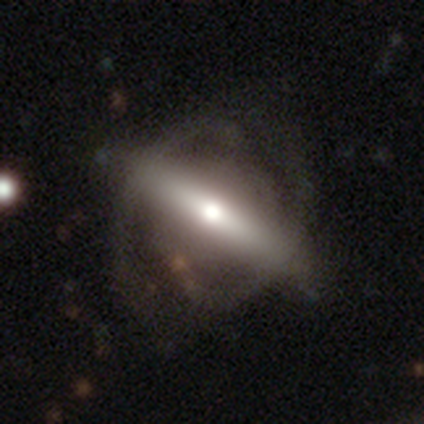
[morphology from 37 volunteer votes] type=featured or disk (84%); edge-on=no (58%); bar=no (44%); spiral arms=yes (83%); winding=tight (40%); arm count=2 (93%); bulge=large (33%, tied with small); merging=none (46%).